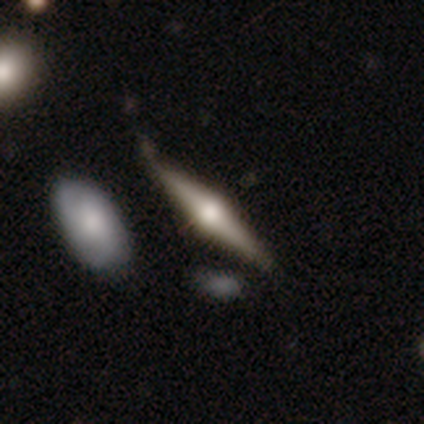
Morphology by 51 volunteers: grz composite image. It shows a featured or disk galaxy (67%) viewed edge-on (100%) with a rounded central bulge (97%). Merging: none (65%).